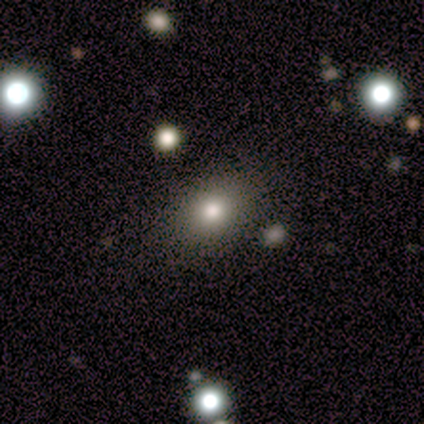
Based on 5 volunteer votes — Smooth or featured? 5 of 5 (100%) said smooth. How rounded? 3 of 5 (60%) said in between. Merging? 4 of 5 (80%) said none.